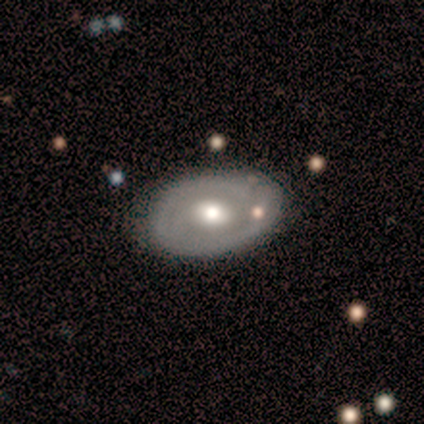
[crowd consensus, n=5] Smooth or featured: featured or disk — 60% (smooth — 40%)
Edge-on disk: no — 100%
Bar: no — 100%
Spiral arms: no — 100%
Bulge size: moderate — 67% (small — 33%)
Merging: none — 100%